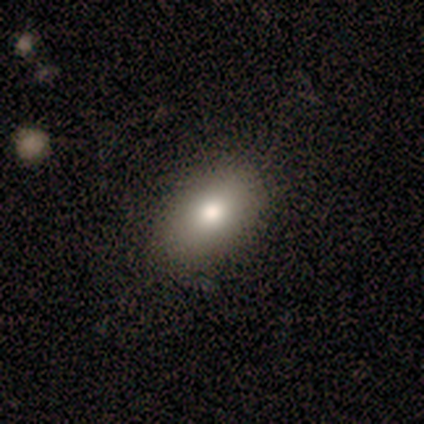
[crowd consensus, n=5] Smooth or featured: smooth — 60% (star or artifact — 40%)
How rounded: in between — 100%
Merging: none — 67% (minor disturbance — 33%)